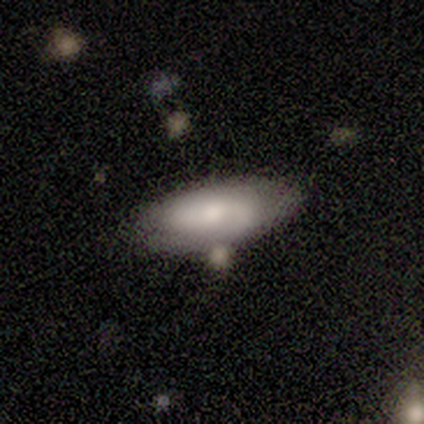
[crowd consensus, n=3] A featured or disk galaxy (67%) viewed edge-on (50%, tied with no) with a rounded central bulge (100%). Merging: none (33%, tied with minor disturbance and merger).